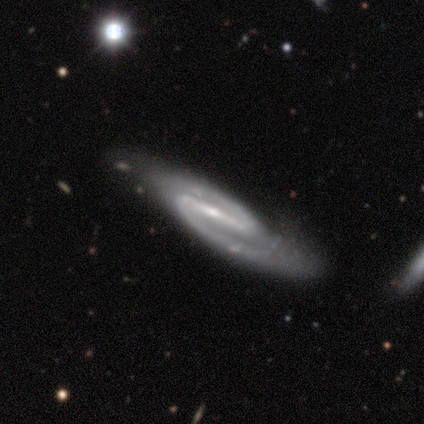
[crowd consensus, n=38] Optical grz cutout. It shows a featured or disk galaxy (97%) with a strong bar (81%), 2 (97%) medium (67%) spiral arms (97%) and a small central bulge (81%). Merging: none (58%).